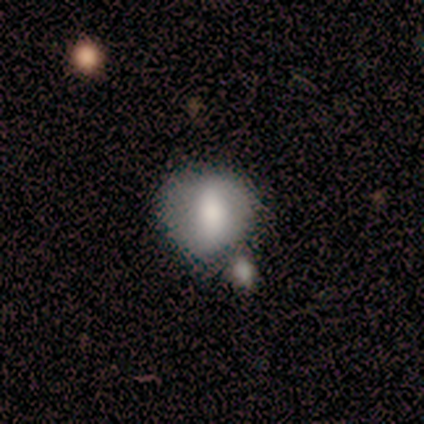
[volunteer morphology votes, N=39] Volunteers were most divided on "merging": none: 39%, merger: 26%, minor disturbance: 21%, major disturbance: 13%. More confident: how rounded — round (76%); smooth or featured — smooth (74%).